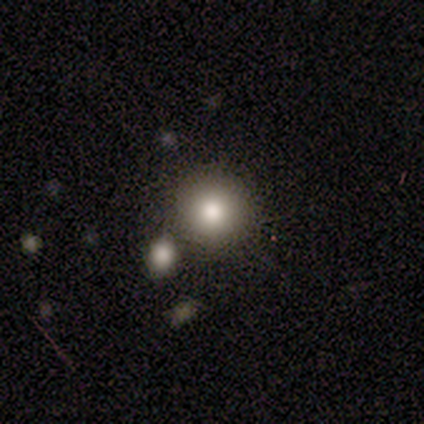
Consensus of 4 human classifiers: A smooth galaxy with no disk features (75%) that is round (100%).

Vote fractions:
- Smooth or featured? smooth: 75% / star or artifact: 25% / featured or disk: 0%
- How rounded? round: 100% / in between: 0% / cigar-shaped: 0%
- Merging? none: 100% / minor disturbance: 0% / major disturbance: 0% / merger: 0%